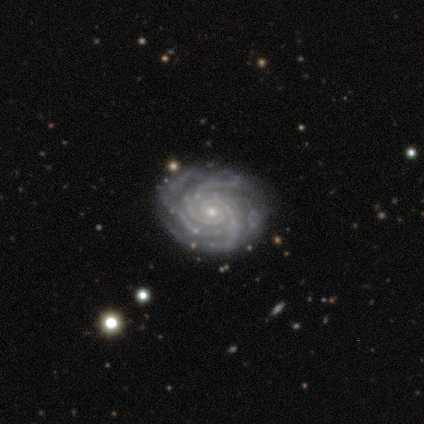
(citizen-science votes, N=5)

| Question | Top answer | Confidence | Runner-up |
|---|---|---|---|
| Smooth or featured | featured or disk | 100% | — |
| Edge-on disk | no | 100% | — |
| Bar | no | 100% | — |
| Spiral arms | yes | 100% | — |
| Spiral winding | tight | 100% | — |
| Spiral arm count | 4 | 60% | 2 (40%) |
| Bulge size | small | 80% | moderate (20%) |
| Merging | none | 80% | major disturbance (20%) |